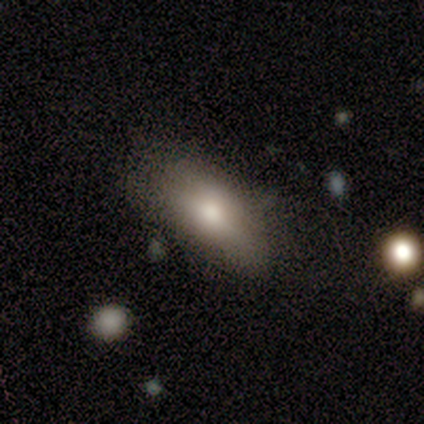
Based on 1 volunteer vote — A featured or disk galaxy (100%) with no bar (100%), no spiral arms (100%) and a moderate central bulge (100%).

Vote fractions:
- Smooth or featured? featured or disk: 100% / smooth: 0% / star or artifact: 0%
- Edge-on disk? no: 100% / yes: 0%
- Bar? no: 100% / strong: 0% / weak: 0%
- Spiral arms? no: 100% / yes: 0%
- Bulge size? moderate: 100% / dominant: 0% / large: 0% / small: 0% / none: 0%
- Merging? minor disturbance: 100% / none: 0% / major disturbance: 0% / merger: 0%